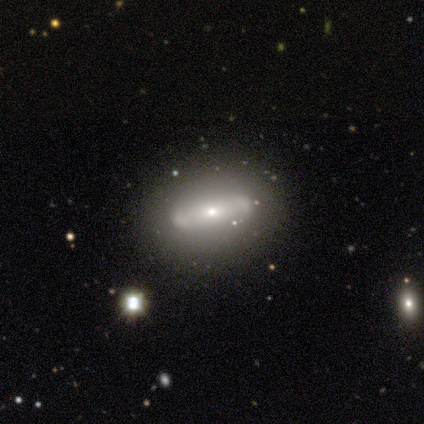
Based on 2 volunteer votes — A featured or disk galaxy (100%) viewed edge-on (50%, tied with no) with a rounded central bulge (100%). Merging: none (50%, tied with minor disturbance).